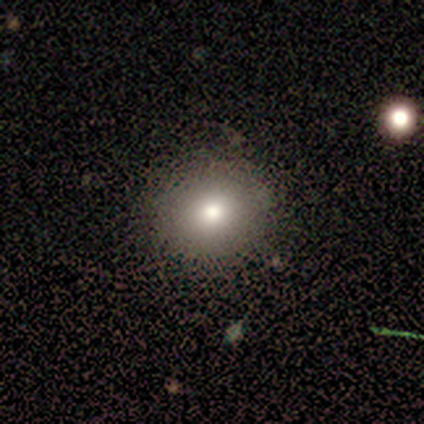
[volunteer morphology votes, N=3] smooth_or_featured: smooth (p=1.00)
how_rounded: round (p=1.00)
merging: none (p=1.00)